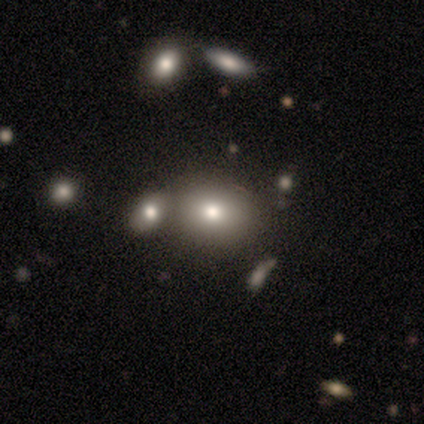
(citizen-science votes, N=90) A smooth galaxy with no disk features (71%) that is in between round and cigar-shaped (52%). Merging: none (51%).